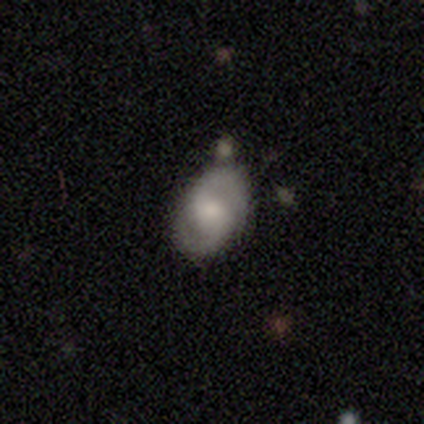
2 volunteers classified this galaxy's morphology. A smooth galaxy with no disk features (50%, tied with featured or disk) that is in between round and cigar-shaped (100%).

Vote fractions:
- Smooth or featured? smooth: 50% (tied) / featured or disk: 50% (tied) / star or artifact: 0%
- How rounded? in between: 100% / round: 0% / cigar-shaped: 0%
- Merging? none: 50% (tied) / merger: 50% (tied) / minor disturbance: 0% / major disturbance: 0%